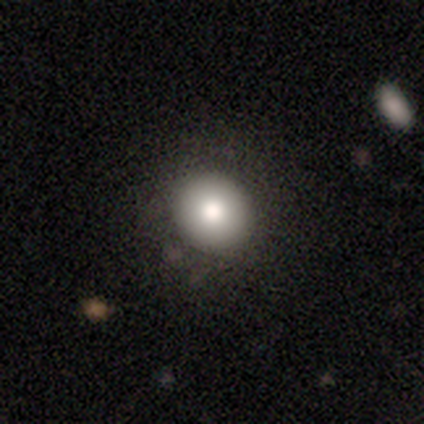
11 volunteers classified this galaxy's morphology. smooth-or-featured: smooth: 91% | featured or disk: 9% | star or artifact: 0%
  how-rounded: round: 90% | in between: 10% | cigar-shaped: 0%
  merging: none: 100% | minor disturbance: 0% | major disturbance: 0% | merger: 0%